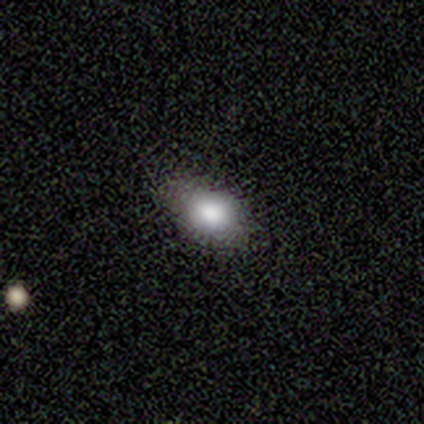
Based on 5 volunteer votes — A smooth galaxy with no disk features (100%) that is in between round and cigar-shaped (80%).

Vote fractions:
- Smooth or featured? smooth: 100% / featured or disk: 0% / star or artifact: 0%
- How rounded? in between: 80% / round: 20% / cigar-shaped: 0%
- Merging? none: 40% (tied) / major disturbance: 40% (tied) / minor disturbance: 20% / merger: 0%